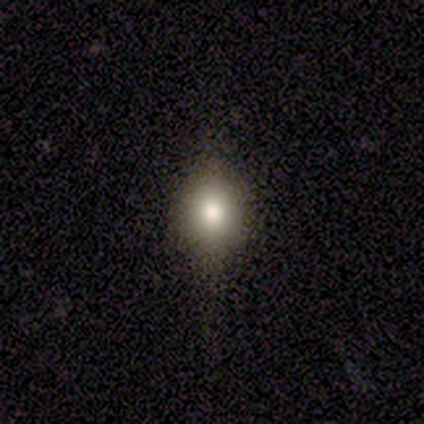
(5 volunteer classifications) Smooth or featured? 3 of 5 (60%) said smooth. How rounded? 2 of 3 (67%) said in between. Merging? 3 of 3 (100%) said none.